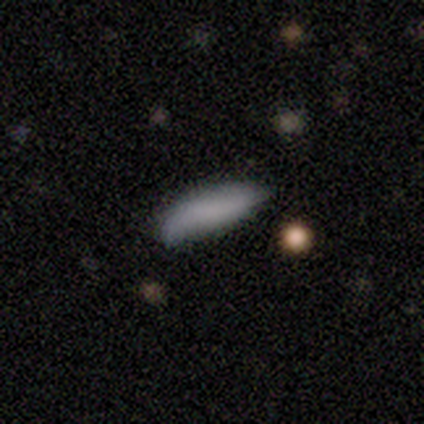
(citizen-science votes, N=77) This is likely a smooth galaxy (79%). How rounded: possibly in between (59%). Merging: marginally none (25%).